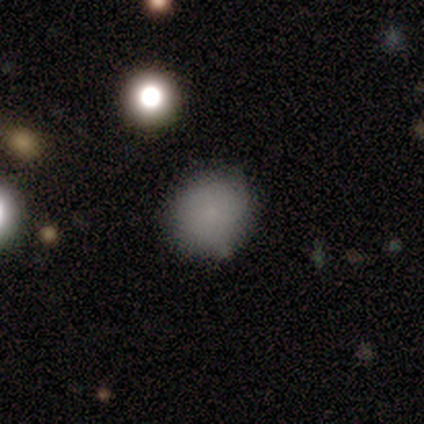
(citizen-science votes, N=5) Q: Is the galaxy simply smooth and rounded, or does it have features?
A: smooth — 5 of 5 (100%).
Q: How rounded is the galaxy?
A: round — 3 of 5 (60%).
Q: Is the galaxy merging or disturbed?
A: none — 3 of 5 (60%).